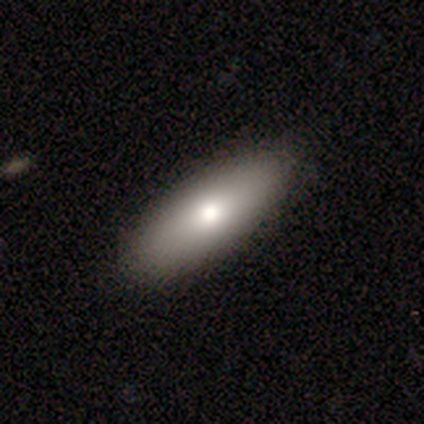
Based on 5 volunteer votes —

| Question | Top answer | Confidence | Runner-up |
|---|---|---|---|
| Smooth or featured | smooth | 80% | featured or disk (20%) |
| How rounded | in between | 100% | — |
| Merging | none | 100% | — |